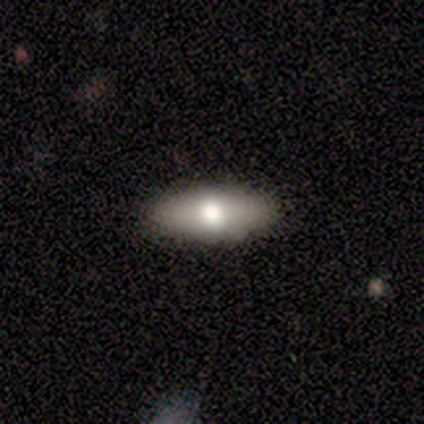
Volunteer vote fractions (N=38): Smooth or featured?
  - smooth: 53% *
  - featured or disk: 47%
  - star or artifact: 0%
How rounded?
  - in between: 80% *
  - cigar-shaped: 20%
  - round: 0%
Merging?
  - none: 92% *
  - minor disturbance: 8%
  - major disturbance: 0%
  - merger: 0%